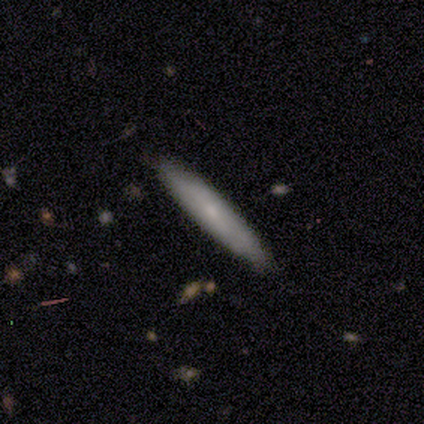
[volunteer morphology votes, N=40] This is possibly a smooth galaxy (55%). How rounded: clearly cigar-shaped (91%). Merging: clearly none (82%).